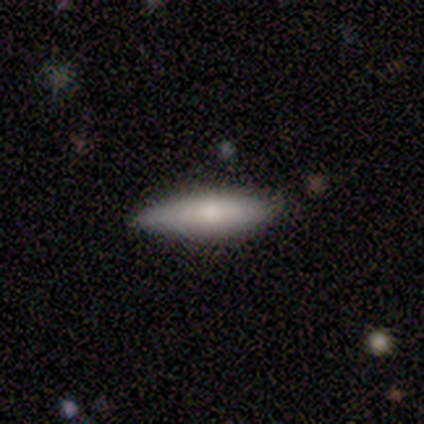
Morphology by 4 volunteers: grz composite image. It shows a smooth galaxy with no disk features (75%) that is cigar-shaped (67%). Merging: none (75%).